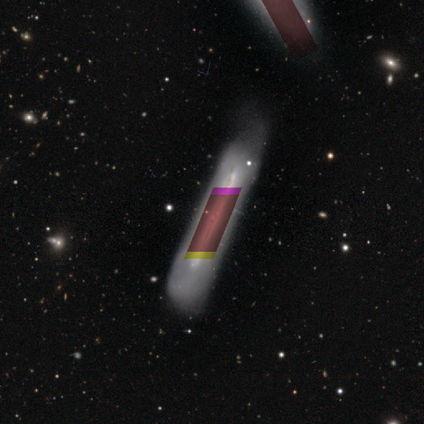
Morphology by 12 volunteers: Q: Smooth or featured?
A: featured or disk (50%); runner-up: smooth (25%)
Q: Edge-on disk?
A: yes (83%); runner-up: no (17%)
Q: Edge-on bulge?
A: none (60%); runner-up: rounded (40%)
Q: Merging?
A: minor disturbance (44%); runner-up: none (33%)